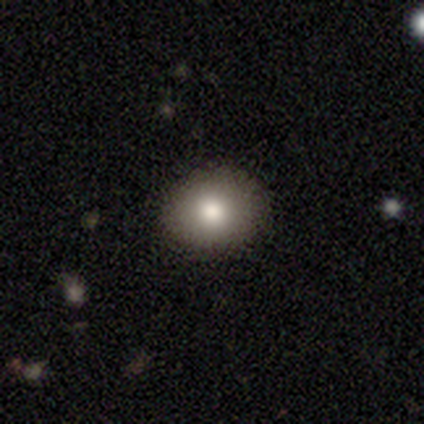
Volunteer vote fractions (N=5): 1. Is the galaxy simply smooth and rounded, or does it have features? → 80% smooth, 20% star or artifact, 0% featured or disk.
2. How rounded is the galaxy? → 50% round (tied), 50% in between (tied), 0% cigar-shaped.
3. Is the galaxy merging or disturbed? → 100% none, 0% minor disturbance, 0% major disturbance, 0% merger.